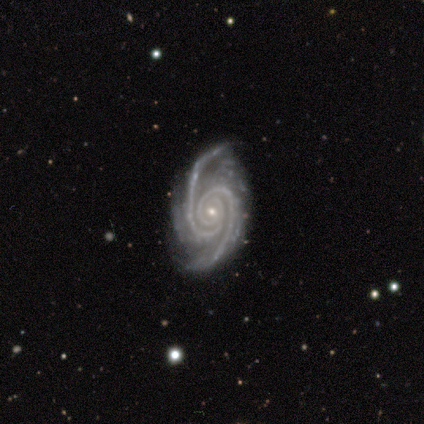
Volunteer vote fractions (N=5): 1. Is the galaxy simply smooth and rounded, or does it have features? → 100% featured or disk, 0% smooth, 0% star or artifact.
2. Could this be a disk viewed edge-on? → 100% no, 0% yes.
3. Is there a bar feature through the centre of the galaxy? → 60% no, 20% strong, 20% weak.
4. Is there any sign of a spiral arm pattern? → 100% yes, 0% no.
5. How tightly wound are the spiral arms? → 60% medium, 20% tight, 20% loose.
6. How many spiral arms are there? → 100% 2, 0% 1, 0% 3, 0% 4, 0% more than 4, 0% can't tell.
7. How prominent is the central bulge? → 60% small, 40% moderate, 0% dominant, 0% large, 0% none.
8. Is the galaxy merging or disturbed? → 80% none, 20% major disturbance, 0% minor disturbance, 0% merger.